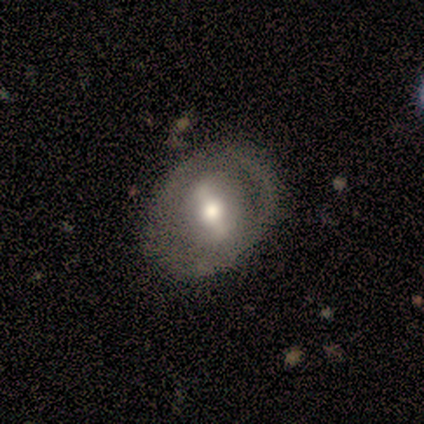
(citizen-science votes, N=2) Smooth or featured? 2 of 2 (100%) said featured or disk. Edge-on disk? 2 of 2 (100%) said no. Bar? 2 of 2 (100%) said weak. Spiral arms? 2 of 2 (100%) said yes. Spiral winding? 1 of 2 (50%, tied with loose) said tight. Spiral arm count? 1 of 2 (50%, tied with can't tell) said 1. Bulge size? 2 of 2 (100%) said moderate. Merging? 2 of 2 (100%) said none.